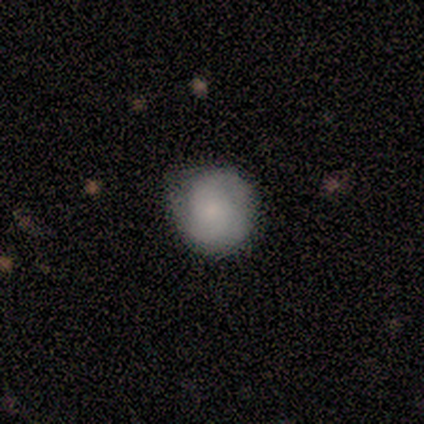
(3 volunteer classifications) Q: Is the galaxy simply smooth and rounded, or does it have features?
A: featured or disk — 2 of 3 (67%).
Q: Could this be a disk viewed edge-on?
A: no — 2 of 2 (100%).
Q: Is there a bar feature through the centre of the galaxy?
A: no — 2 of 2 (100%).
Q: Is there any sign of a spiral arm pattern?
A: yes — 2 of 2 (100%).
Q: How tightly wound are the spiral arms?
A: tight — 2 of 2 (100%).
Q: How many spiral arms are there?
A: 2 — 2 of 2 (100%).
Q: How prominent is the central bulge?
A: moderate — 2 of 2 (100%).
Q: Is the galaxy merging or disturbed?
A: none — 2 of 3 (67%).